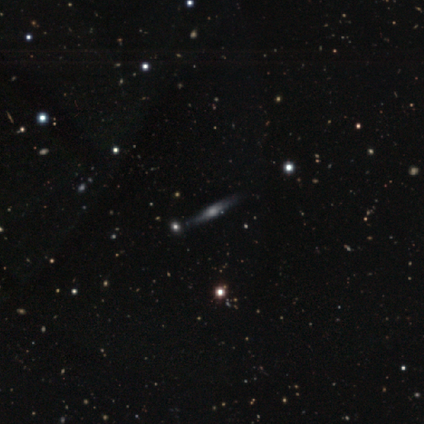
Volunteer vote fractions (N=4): featured or disk 75%, smooth 25%, star or artifact 0%. Down the decision tree: edge-on disk — yes (67%); edge-on bulge — boxy (50%, tied with rounded); merging — none (50%).